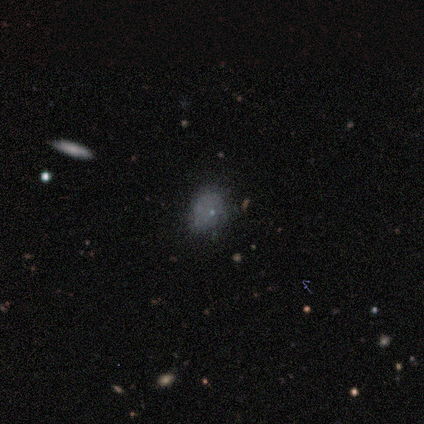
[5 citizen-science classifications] Morphology: type=smooth (60%); roundness=round (67%); merging=none (75%).